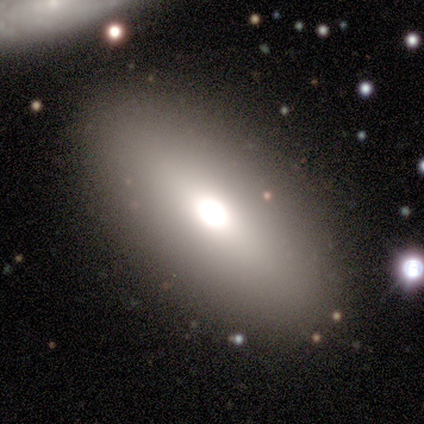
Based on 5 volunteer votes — smooth 60%, featured or disk 20%, star or artifact 20%. Down the decision tree: how rounded — in between (67%); merging — none (75%).